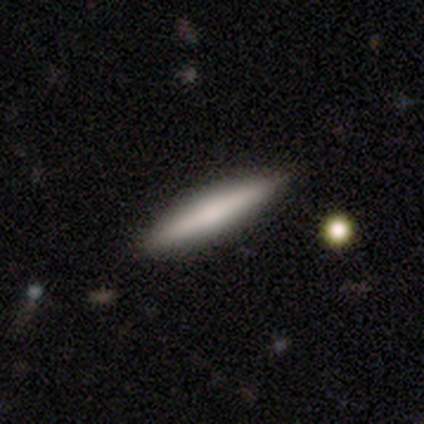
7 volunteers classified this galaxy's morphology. A smooth galaxy with no disk features (86%) that is cigar-shaped (100%).

Vote fractions:
- Smooth or featured? smooth: 86% / featured or disk: 14% / star or artifact: 0%
- How rounded? cigar-shaped: 100% / round: 0% / in between: 0%
- Merging? none: 100% / minor disturbance: 0% / major disturbance: 0% / merger: 0%